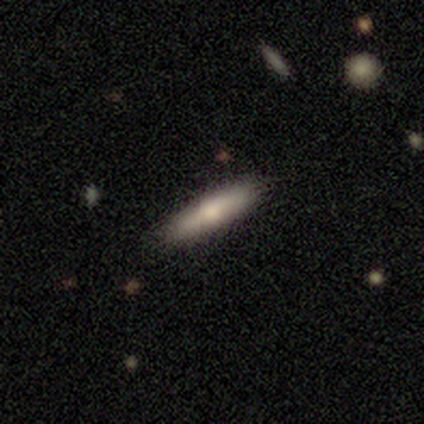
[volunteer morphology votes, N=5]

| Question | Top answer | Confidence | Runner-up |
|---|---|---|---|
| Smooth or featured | featured or disk | 60% | smooth (20%) |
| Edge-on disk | yes | 67% | no (33%) |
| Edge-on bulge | rounded | 100% | — |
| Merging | none | 100% | — |